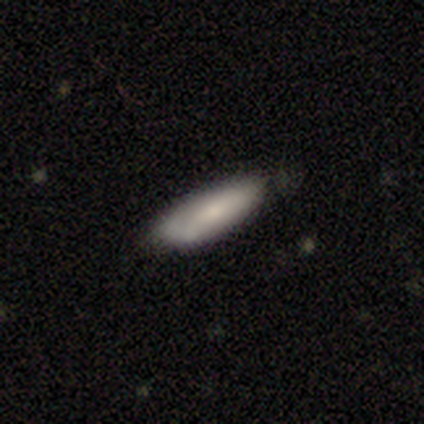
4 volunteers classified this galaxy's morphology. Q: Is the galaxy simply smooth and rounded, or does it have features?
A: smooth — 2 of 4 (50%, tied with featured or disk).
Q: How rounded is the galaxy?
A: in between — 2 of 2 (100%).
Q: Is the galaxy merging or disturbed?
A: minor disturbance — 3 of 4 (75%).